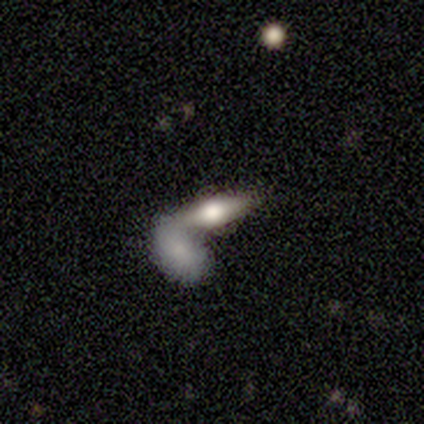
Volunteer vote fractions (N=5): Smooth or featured?
  - featured or disk: 80% *
  - smooth: 20%
  - star or artifact: 0%
Edge-on disk?
  - yes: 50% * (tied)
  - no: 50% * (tied)
Edge-on bulge?
  - rounded: 100% *
  - boxy: 0%
  - none: 0%
Merging?
  - merger: 80% *
  - none: 20%
  - minor disturbance: 0%
  - major disturbance: 0%